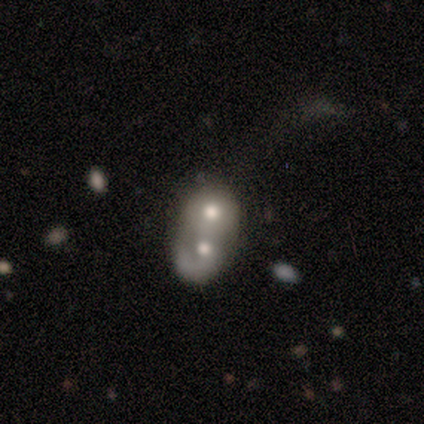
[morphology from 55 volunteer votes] Q: Smooth or featured?
A: smooth (49%); runner-up: featured or disk (47%)
Q: How rounded?
A: round (63%); runner-up: in between (37%)
Q: Merging?
A: merger (91%); runner-up: minor disturbance (8%)